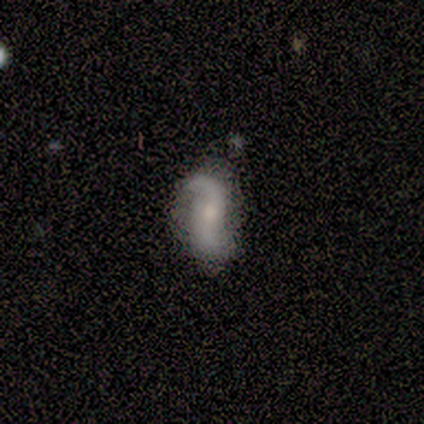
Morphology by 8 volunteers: Volunteers were most divided on "merging": none: 57%, minor disturbance: 43%, major disturbance: 0%, merger: 0%. More confident: bar — no (100%); spiral arms — yes (100%); spiral arm count — 2 (100%); smooth or featured — featured or disk (88%); edge-on disk — no (86%); spiral winding — loose (83%); bulge size — small (67%).